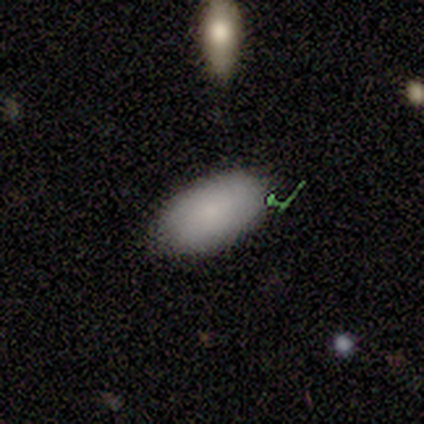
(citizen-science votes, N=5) This appears to be a smooth galaxy with no disk features (80%) that is in between round and cigar-shaped (75%). Merging: none (80%).